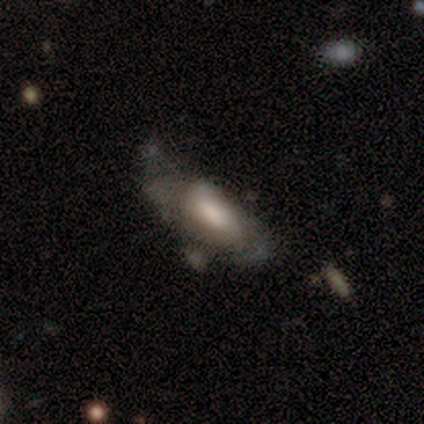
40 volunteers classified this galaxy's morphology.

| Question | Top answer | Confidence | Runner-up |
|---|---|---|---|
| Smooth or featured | featured or disk | 57% | smooth (32%) |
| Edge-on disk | no | 87% | yes (13%) |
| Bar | no | 50% | weak (45%) |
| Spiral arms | yes | 55% | no (45%) |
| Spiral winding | tight | 36% | tied: loose (36%) |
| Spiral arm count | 2 | 55% | can't tell (45%) |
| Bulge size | large | 40% | moderate (25%) |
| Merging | major disturbance | 36% | minor disturbance (31%) |